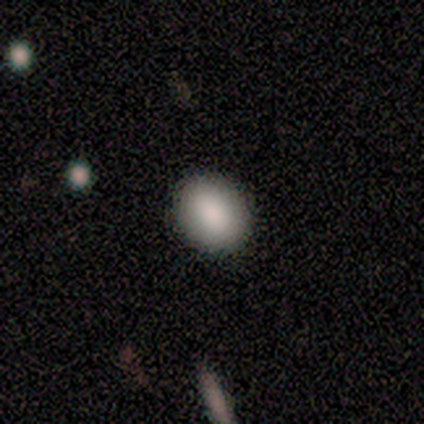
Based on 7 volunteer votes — smooth 100%, featured or disk 0%, star or artifact 0%. Down the decision tree: how rounded — round (86%); merging — none (100%).